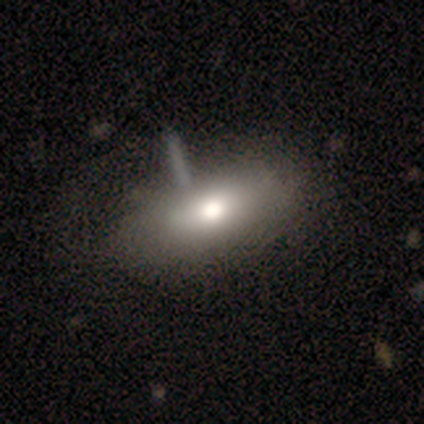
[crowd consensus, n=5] smooth_or_featured: smooth (p=0.80) [alt: featured or disk p=0.20]
how_rounded: in between (p=1.00)
merging: none (p=0.60) [alt: major disturbance p=0.20]